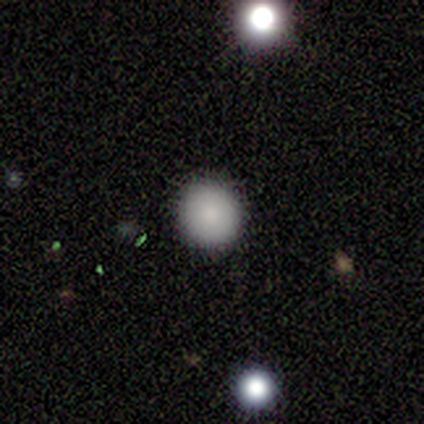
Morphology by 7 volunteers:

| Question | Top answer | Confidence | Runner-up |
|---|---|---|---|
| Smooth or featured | smooth | 86% | star or artifact (14%) |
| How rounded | round | 100% | — |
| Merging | none | 100% | — |